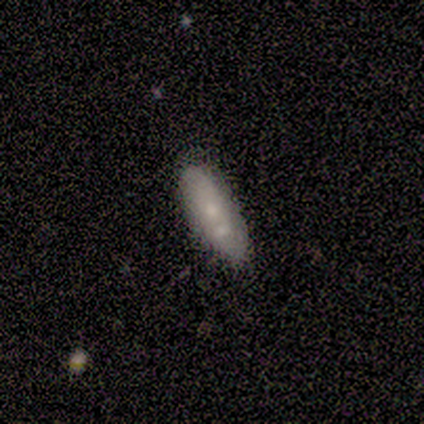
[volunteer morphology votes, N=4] Smooth or featured?
  - smooth: 50% * (tied)
  - featured or disk: 50% * (tied)
  - star or artifact: 0%
How rounded?
  - in between: 50% * (tied)
  - cigar-shaped: 50% * (tied)
  - round: 0%
Merging?
  - merger: 50% *
  - none: 25%
  - minor disturbance: 25%
  - major disturbance: 0%